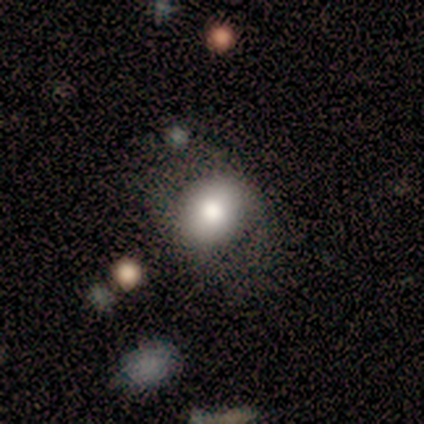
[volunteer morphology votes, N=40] Volunteers were most divided on "how rounded": round: 70%, in between: 30%, cigar-shaped: 0%. More confident: merging — none (76%); smooth or featured — smooth (68%).